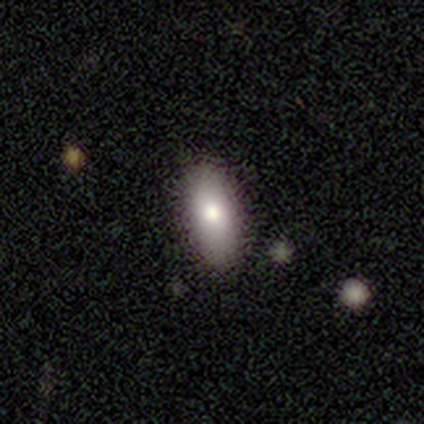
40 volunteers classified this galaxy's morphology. Overall: smooth (78%). How rounded: in between (87%). Merging: none (82%).